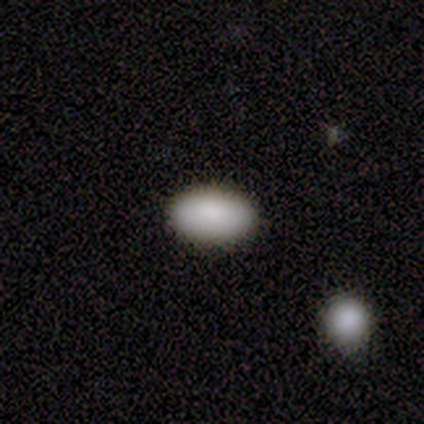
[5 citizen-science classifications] This appears to be a smooth galaxy with no disk features (100%) that is in between round and cigar-shaped (80%). Merging: none (100%).